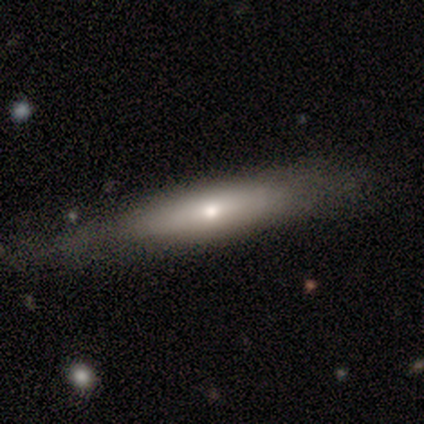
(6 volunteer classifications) smooth 67%, featured or disk 33%, star or artifact 0%. Down the decision tree: how rounded — in between (75%); merging — none (83%).